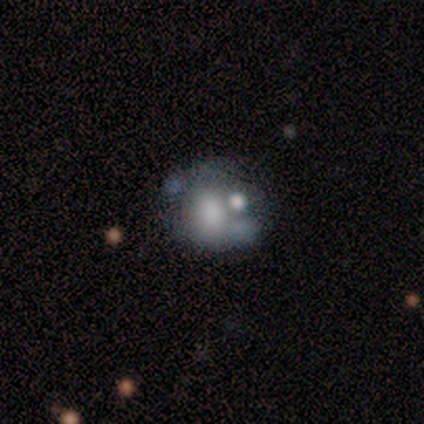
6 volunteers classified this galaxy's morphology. A smooth galaxy with no disk features (83%) that is in between round and cigar-shaped (60%). Merging: minor disturbance (33%, tied with major disturbance and merger).